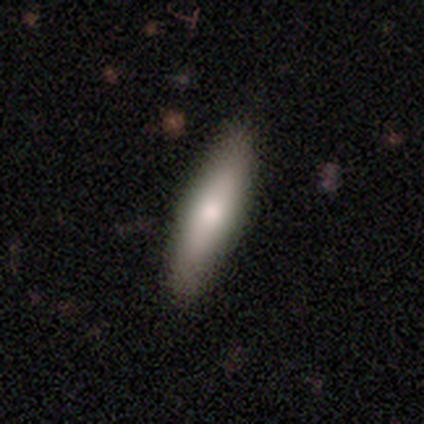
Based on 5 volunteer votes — smooth-or-featured: smooth: 100% | featured or disk: 0% | star or artifact: 0%
  how-rounded: cigar-shaped: 100% | round: 0% | in between: 0%
  merging: none: 100% | minor disturbance: 0% | major disturbance: 0% | merger: 0%